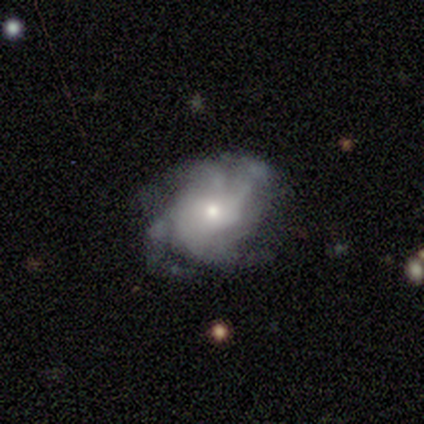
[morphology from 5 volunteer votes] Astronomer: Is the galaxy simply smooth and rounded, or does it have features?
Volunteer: featured or disk — 100%.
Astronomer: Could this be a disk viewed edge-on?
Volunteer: no — 100%.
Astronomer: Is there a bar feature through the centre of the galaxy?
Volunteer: no — 100%.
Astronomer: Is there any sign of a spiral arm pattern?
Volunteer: yes — 100%.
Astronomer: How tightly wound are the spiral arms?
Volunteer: tight — 40%, tied with loose at 40%.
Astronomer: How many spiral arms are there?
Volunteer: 4 — 40% (runner-up: 3, 20%).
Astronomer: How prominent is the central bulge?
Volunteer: moderate — 80%.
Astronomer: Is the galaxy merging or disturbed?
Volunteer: none — 80%.